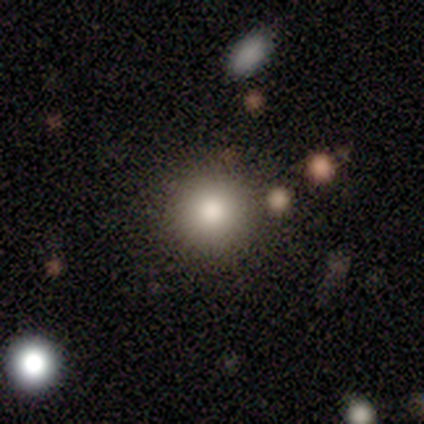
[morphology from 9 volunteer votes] Q: Smooth or featured?
A: smooth (67%); runner-up: star or artifact (22%)
Q: How rounded?
A: round (100%)
Q: Merging?
A: none (100%)